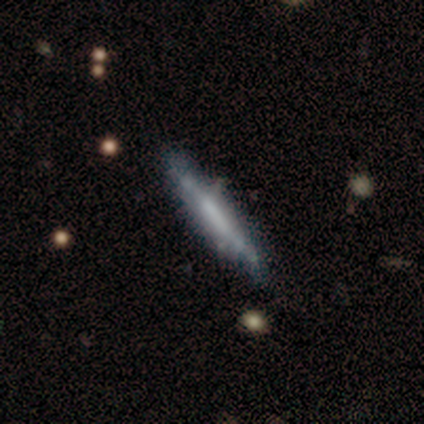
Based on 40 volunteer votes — Smooth or featured? featured or disk (62%)
Edge-on disk? yes (80%)
Edge-on bulge? none (70%)
Merging? none (82%)